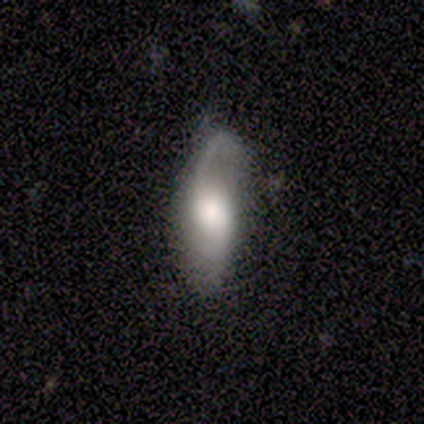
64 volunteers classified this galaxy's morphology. Smooth or featured? featured or disk (67%)
Edge-on disk? no (93%)
Bar? no (68%)
Spiral arms? yes (95%)
Spiral winding? loose (61%)
Spiral arm count? 2 (58%)
Bulge size? large (55%)
Merging? none (54%)